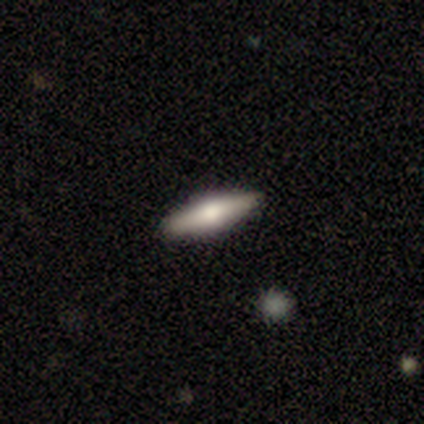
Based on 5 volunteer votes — Overall: featured or disk (60%; smooth 40%). Edge-on disk: yes (100%). Edge-on bulge: rounded (100%). Merging: none (100%).